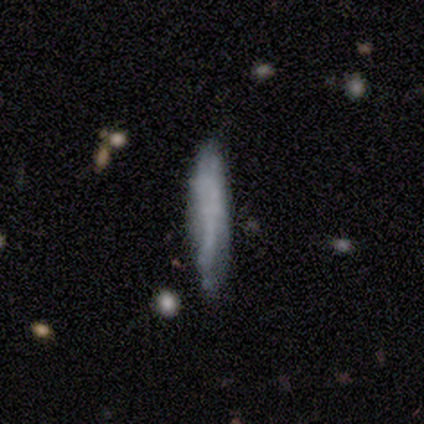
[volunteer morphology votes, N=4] A smooth galaxy with no disk features (75%) that is cigar-shaped (100%).

Vote fractions:
- Smooth or featured? smooth: 75% / featured or disk: 25% / star or artifact: 0%
- How rounded? cigar-shaped: 100% / round: 0% / in between: 0%
- Merging? none: 50% (tied) / minor disturbance: 50% (tied) / major disturbance: 0% / merger: 0%